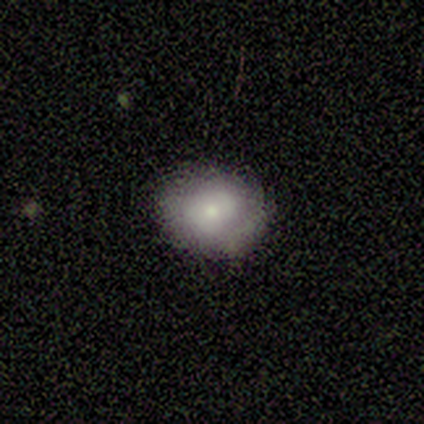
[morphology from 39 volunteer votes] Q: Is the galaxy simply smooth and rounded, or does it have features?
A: smooth — 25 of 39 (64%).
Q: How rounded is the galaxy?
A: round — 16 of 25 (64%).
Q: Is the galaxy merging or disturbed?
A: none — 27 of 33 (82%).